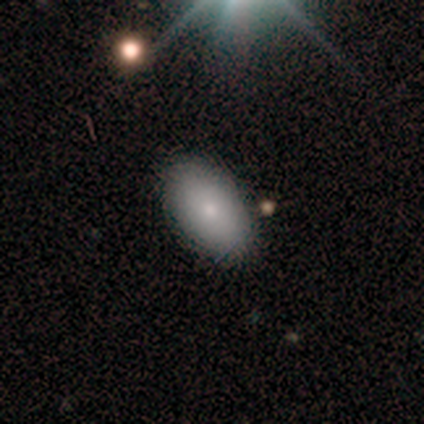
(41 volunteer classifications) smooth 80%, featured or disk 17%, star or artifact 2%. Down the decision tree: how rounded — in between (97%); merging — none (85%).